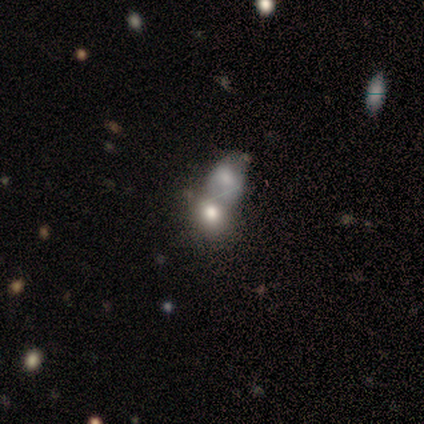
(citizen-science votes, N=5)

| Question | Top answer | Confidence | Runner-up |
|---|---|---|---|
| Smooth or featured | smooth | 60% | featured or disk (20%) |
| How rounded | in between | 67% | round (33%) |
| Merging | none | 50% | minor disturbance (25%) |